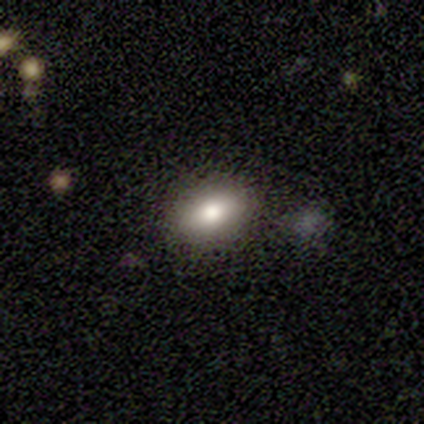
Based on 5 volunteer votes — smooth 100%, featured or disk 0%, star or artifact 0%. Down the decision tree: how rounded — in between (100%); merging — none (100%).